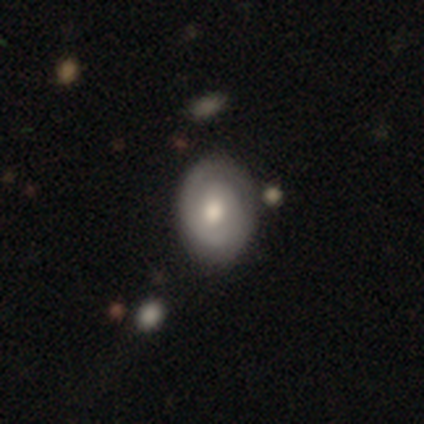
A featured or disk galaxy (54%) with no bar (81%), 2 (53%) tight (80%) spiral arms (71%) and a moderate central bulge (71%). Merging: none (69%).